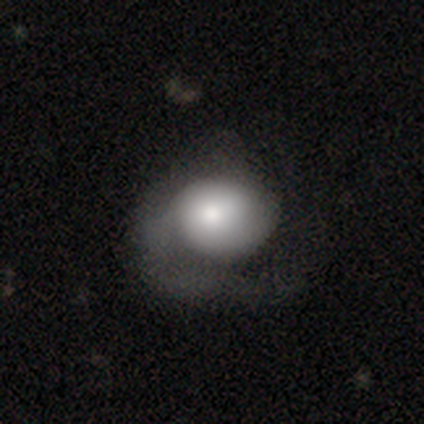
This appears to be a featured or disk galaxy (60%) with no bar (100%), 1 (100%) medium (67%) spiral arms (100%) and a large central bulge (67%). Merging: major disturbance (80%).